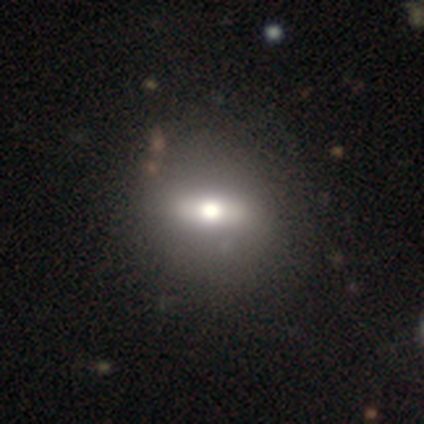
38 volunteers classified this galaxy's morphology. smooth-or-featured: smooth: 45% | featured or disk: 32% | star or artifact: 24%
  how-rounded: in between: 71% | round: 18% | cigar-shaped: 12%
  merging: none: 83% | minor disturbance: 10% | major disturbance: 7% | merger: 0%